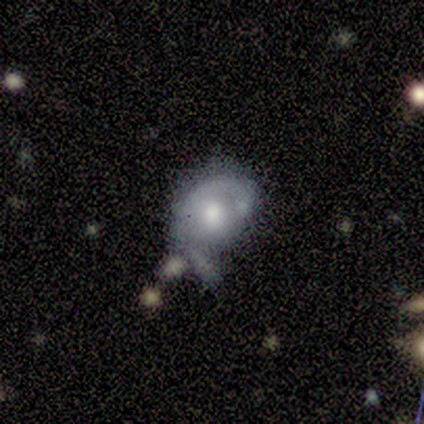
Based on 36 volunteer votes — Volunteers were most divided on "spiral arms": yes: 57%, no: 43%. Remaining: edge-on disk — no (100%); bar — no (90%); spiral winding — tight (75%); spiral arm count — 1 (67%); smooth or featured — featured or disk (58%); bulge size — moderate (48%); merging — major disturbance (47%).